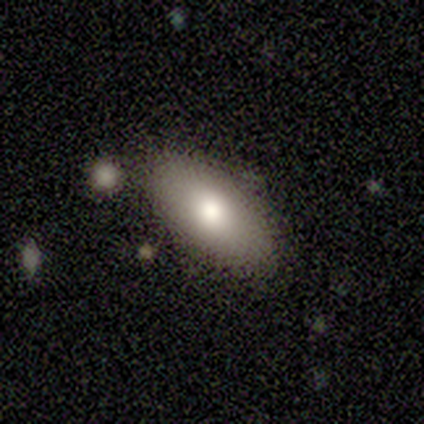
Overall: smooth (80%). How rounded: in between (75%). Merging: none (80%).